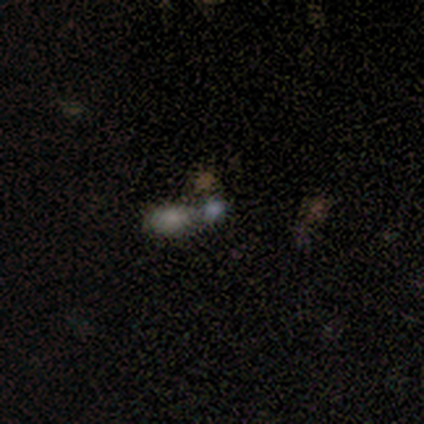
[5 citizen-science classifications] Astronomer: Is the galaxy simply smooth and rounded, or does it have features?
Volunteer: smooth — 60%.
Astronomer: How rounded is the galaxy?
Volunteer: in between — 100%.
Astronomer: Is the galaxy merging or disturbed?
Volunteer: merger — 50%.